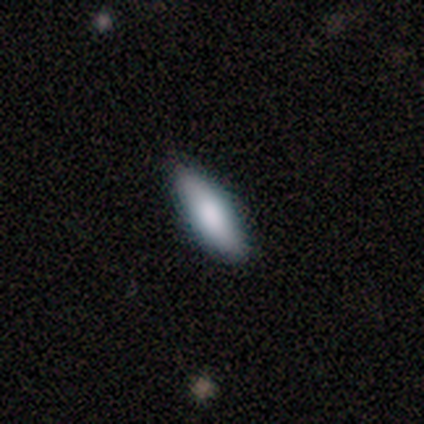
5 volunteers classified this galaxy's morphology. type=smooth (60%); roundness=cigar-shaped (67%); merging=none (80%).